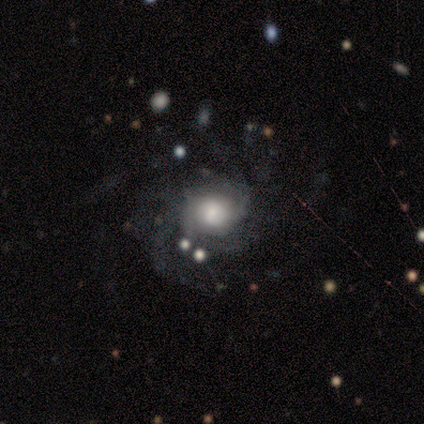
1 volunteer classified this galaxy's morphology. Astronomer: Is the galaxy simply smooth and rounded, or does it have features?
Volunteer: featured or disk — 100%.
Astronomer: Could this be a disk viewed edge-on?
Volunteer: no — 100%.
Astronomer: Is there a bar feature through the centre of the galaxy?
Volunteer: no — 100%.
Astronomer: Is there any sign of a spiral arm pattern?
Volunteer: yes — 100%.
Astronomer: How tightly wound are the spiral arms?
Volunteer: tight — 100%.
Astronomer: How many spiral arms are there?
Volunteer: more than 4 — 100%.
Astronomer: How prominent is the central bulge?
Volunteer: large — 100%.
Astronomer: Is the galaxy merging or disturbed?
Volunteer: none — 100%.